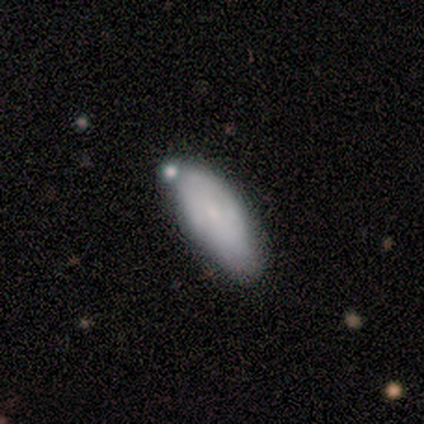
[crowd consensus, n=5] Smooth or featured: smooth — 60% (featured or disk — 40%)
How rounded: in between — 100%
Merging: none — 60% (minor disturbance — 20%)